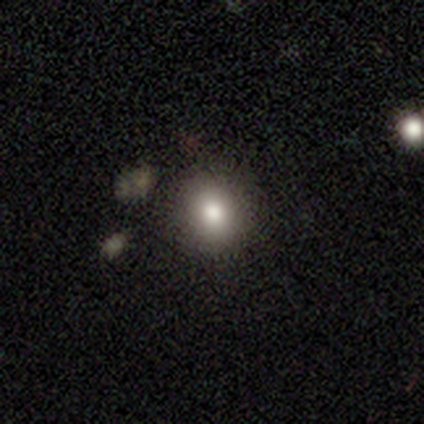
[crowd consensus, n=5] This is likely a smooth galaxy (60%). How rounded: likely round (67%). Merging: clearly none (100%).